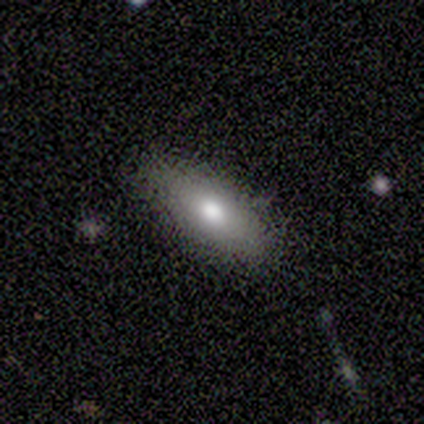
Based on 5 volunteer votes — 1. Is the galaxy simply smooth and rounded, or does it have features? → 60% smooth, 20% featured or disk, 20% star or artifact.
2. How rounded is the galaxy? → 67% cigar-shaped, 33% in between, 0% round.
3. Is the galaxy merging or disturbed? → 50% none (tied), 50% minor disturbance (tied), 0% major disturbance, 0% merger.